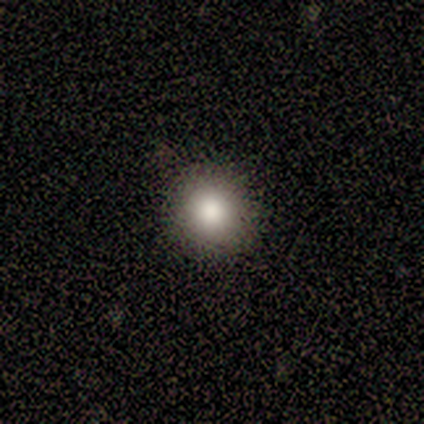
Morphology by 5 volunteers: Q: Smooth or featured?
A: smooth (80%); runner-up: star or artifact (20%)
Q: How rounded?
A: round (75%); runner-up: in between (25%)
Q: Merging?
A: none (75%); runner-up: minor disturbance (25%)